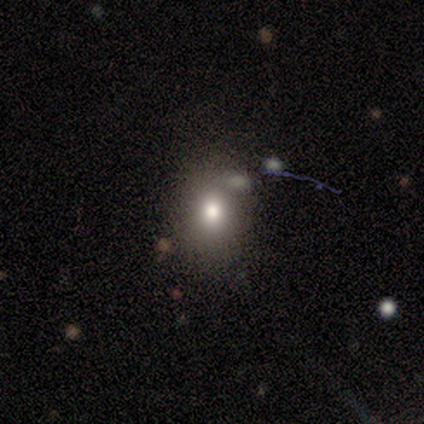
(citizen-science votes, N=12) Volunteers were most divided on "merging": none: 55%, minor disturbance: 36%, major disturbance: 9%, merger: 0%. More confident: smooth or featured — smooth (92%); how rounded — round (64%).